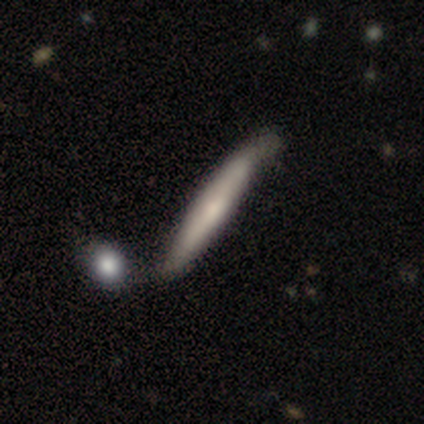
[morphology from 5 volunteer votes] A featured or disk galaxy (60%) with no bar (100%), 2 (50%, tied with can't tell) tight (50%, tied with medium) spiral arms (100%) and a small central bulge (100%).

Vote fractions:
- Smooth or featured? featured or disk: 60% / smooth: 40% / star or artifact: 0%
- Edge-on disk? no: 67% / yes: 33%
- Bar? no: 100% / strong: 0% / weak: 0%
- Spiral arms? yes: 100% / no: 0%
- Spiral winding? tight: 50% (tied) / medium: 50% (tied) / loose: 0%
- Spiral arm count? 2: 50% (tied) / can't tell: 50% (tied) / 1: 0% / 3: 0% / 4: 0% / more than 4: 0%
- Bulge size? small: 100% / dominant: 0% / large: 0% / moderate: 0% / none: 0%
- Merging? minor disturbance: 60% / merger: 40% / none: 0% / major disturbance: 0%